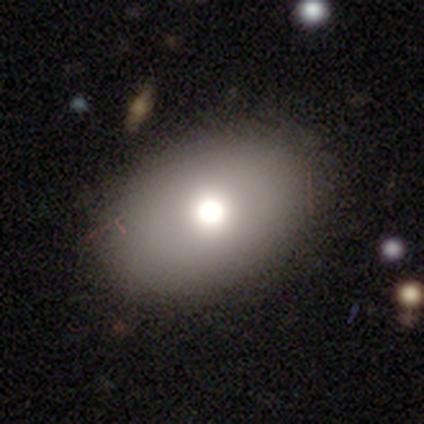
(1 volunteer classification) A smooth galaxy with no disk features (100%) that is in between round and cigar-shaped (100%). Merging: none (100%).